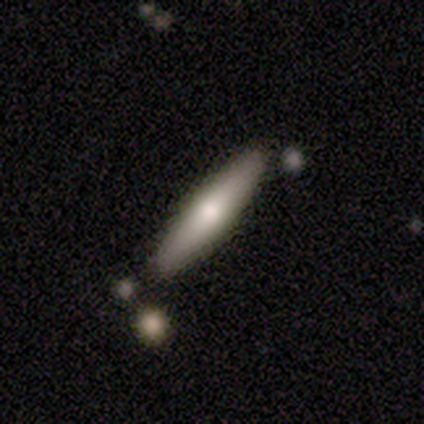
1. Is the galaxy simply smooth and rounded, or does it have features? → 80% smooth, 20% featured or disk, 0% star or artifact.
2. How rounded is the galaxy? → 100% cigar-shaped, 0% round, 0% in between.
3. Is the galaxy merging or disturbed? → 80% none, 20% minor disturbance, 0% major disturbance, 0% merger.